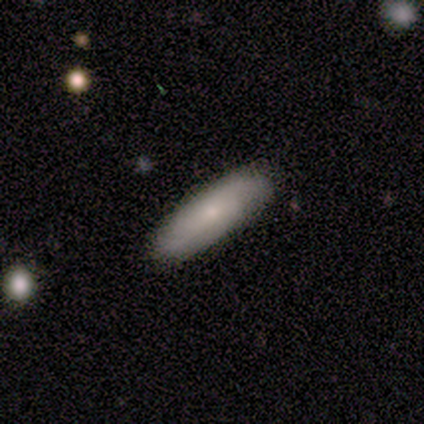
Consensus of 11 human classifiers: Volunteers were most divided on "smooth or featured": smooth: 64%, featured or disk: 36%, star or artifact: 0%. More confident: merging — none (100%); how rounded — cigar-shaped (71%).